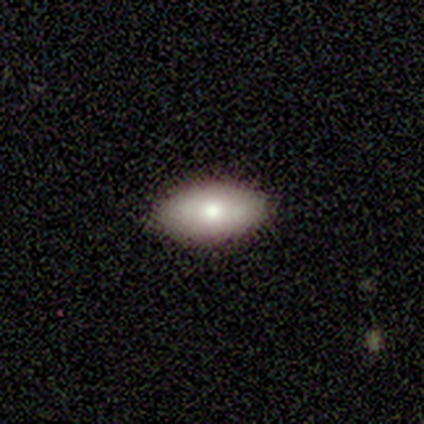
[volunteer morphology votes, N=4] Smooth or featured?
  - smooth: 100% *
  - featured or disk: 0%
  - star or artifact: 0%
How rounded?
  - in between: 100% *
  - round: 0%
  - cigar-shaped: 0%
Merging?
  - none: 100% *
  - minor disturbance: 0%
  - major disturbance: 0%
  - merger: 0%